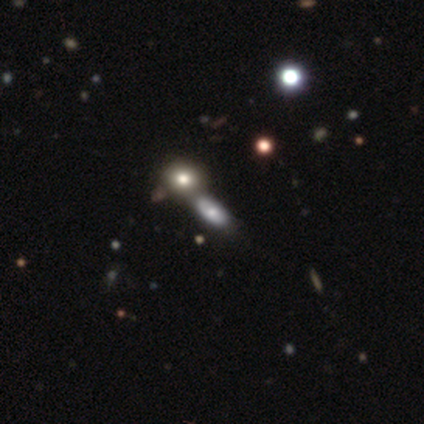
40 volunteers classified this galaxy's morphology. smooth_or_featured: smooth (p=0.50) [alt: featured or disk p=0.28]
how_rounded: in between (p=0.75) [alt: round p=0.15]
merging: merger (p=0.48) [alt: none p=0.35]